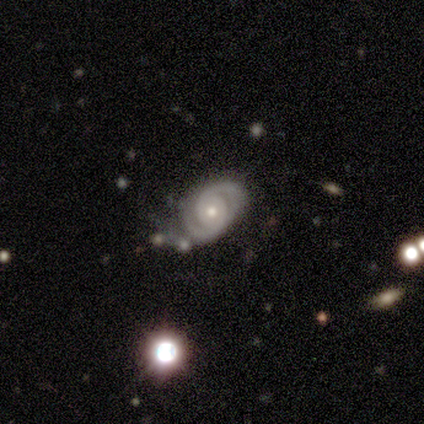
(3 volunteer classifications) Overall: featured or disk (100%). Edge-on disk: no (100%). Bar: no (100%). Spiral arms: yes (67%; no 33%). Spiral arm count: 2 (100%). Spiral winding: tight (50%, tied with medium). Bulge size: moderate (67%; small 33%). Merging: minor disturbance (67%; none 33%).